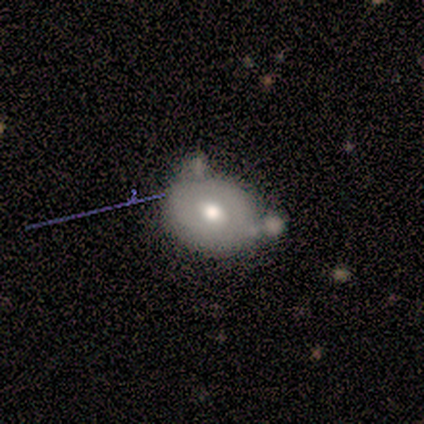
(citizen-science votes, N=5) Smooth or featured? 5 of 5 (100%) said smooth. How rounded? 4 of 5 (80%) said round. Merging? 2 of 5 (40%, tied with minor disturbance) said none.